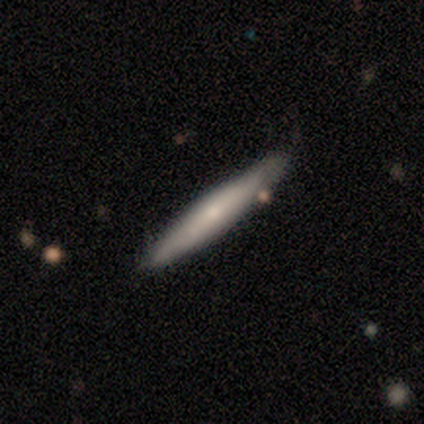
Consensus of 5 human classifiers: Morphology: type=featured or disk (60%); edge-on=yes (100%); edge-on bulge=rounded (100%); merging=none (50%, tied with minor disturbance).